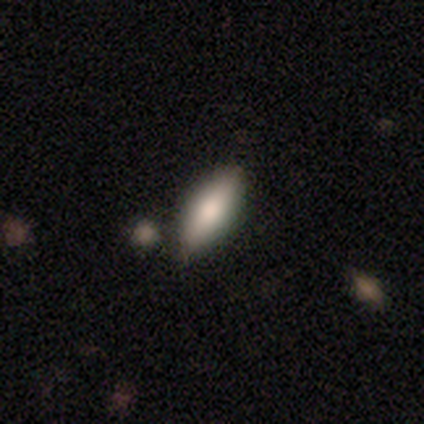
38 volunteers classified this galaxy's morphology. Smooth or featured? 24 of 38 (63%) said smooth. How rounded? 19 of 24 (79%) said in between. Merging? 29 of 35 (83%) said none.